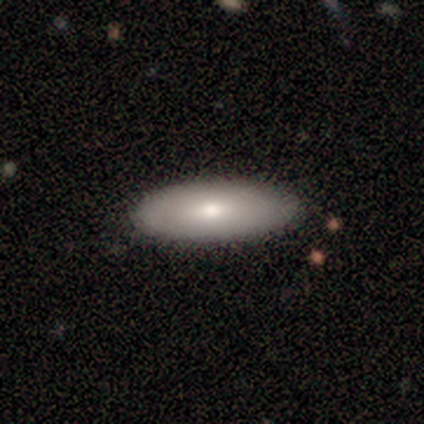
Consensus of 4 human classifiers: This appears to be a smooth galaxy with no disk features (50%) that is in between round and cigar-shaped (100%). Merging: none (100%).